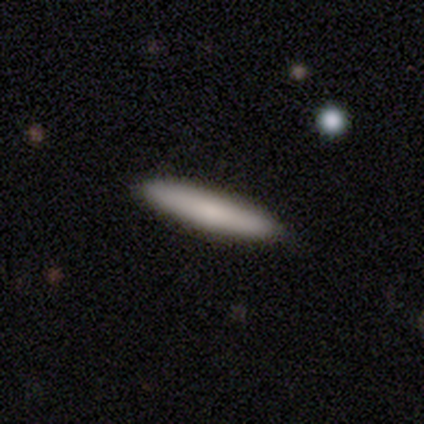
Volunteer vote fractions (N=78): This appears to be a smooth galaxy with no disk features (85%) that is cigar-shaped (95%). Merging: none (58%).